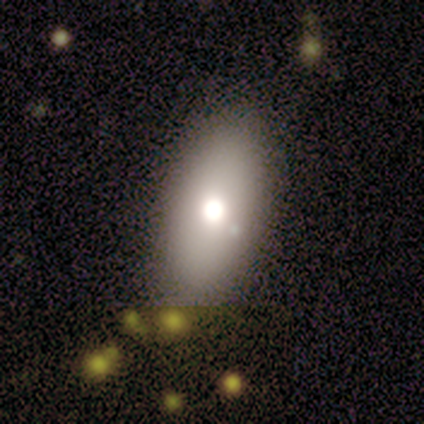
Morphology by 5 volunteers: Smooth or featured?
  - smooth: 100% *
  - featured or disk: 0%
  - star or artifact: 0%
How rounded?
  - in between: 100% *
  - round: 0%
  - cigar-shaped: 0%
Merging?
  - none: 60% *
  - minor disturbance: 20%
  - merger: 20%
  - major disturbance: 0%